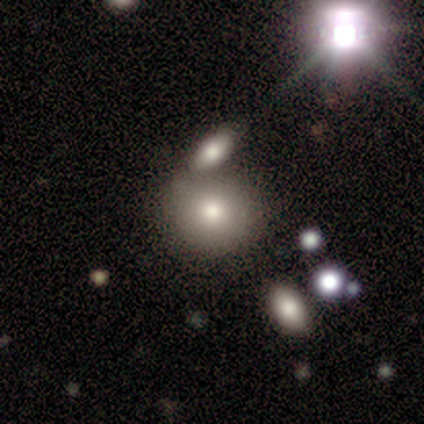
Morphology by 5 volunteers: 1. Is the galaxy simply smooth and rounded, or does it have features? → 60% smooth, 40% featured or disk, 0% star or artifact.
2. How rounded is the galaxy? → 100% round, 0% in between, 0% cigar-shaped.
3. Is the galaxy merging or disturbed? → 40% none (tied), 40% merger (tied), 20% major disturbance, 0% minor disturbance.